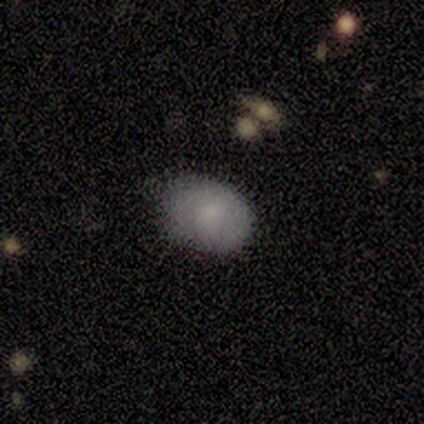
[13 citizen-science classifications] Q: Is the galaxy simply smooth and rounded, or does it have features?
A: smooth — 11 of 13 (85%).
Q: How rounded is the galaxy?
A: in between — 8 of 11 (73%).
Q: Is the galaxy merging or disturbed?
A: none — 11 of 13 (85%).